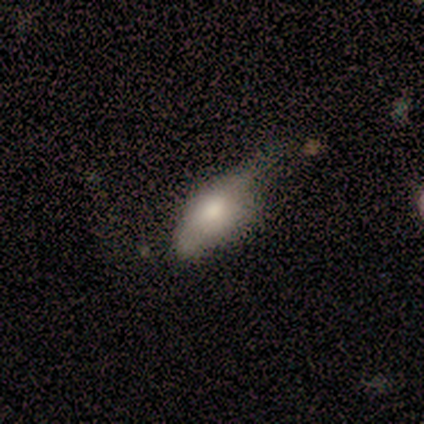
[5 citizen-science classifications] Q: Smooth or featured?
A: smooth (60%); runner-up: featured or disk (20%)
Q: How rounded?
A: in between (67%); runner-up: round (33%)
Q: Merging?
A: minor disturbance (50%); tied with: major disturbance (50%)